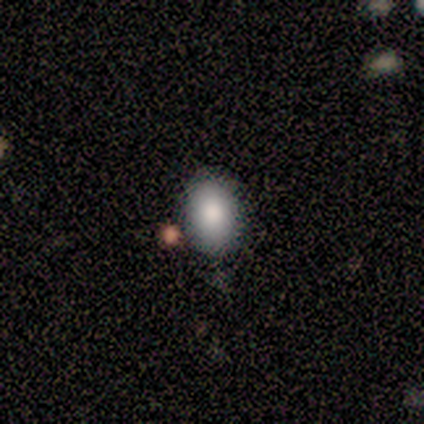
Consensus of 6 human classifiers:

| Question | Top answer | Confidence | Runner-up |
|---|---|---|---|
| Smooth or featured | smooth | 83% | star or artifact (17%) |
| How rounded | in between | 100% | — |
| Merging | none | 100% | — |